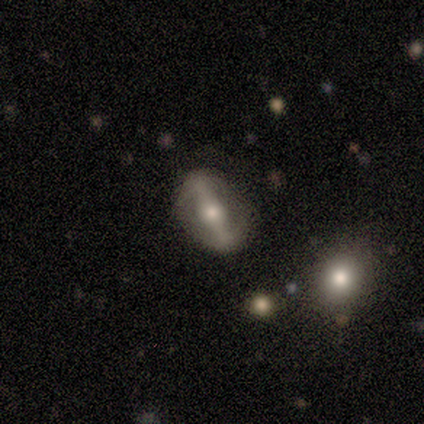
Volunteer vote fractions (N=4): Smooth or featured? 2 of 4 (50%, tied with featured or disk) said smooth. How rounded? 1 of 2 (50%, tied with in between) said round. Merging? 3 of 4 (75%) said none.